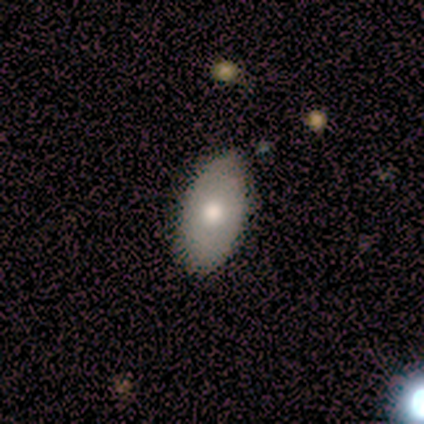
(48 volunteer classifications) A smooth galaxy with no disk features (60%) that is in between round and cigar-shaped (97%). Merging: none (93%).